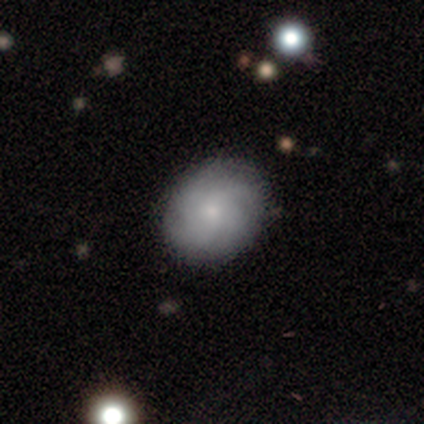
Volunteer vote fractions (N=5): Smooth or featured? featured or disk (80%)
Edge-on disk? no (100%)
Bar? no (100%)
Spiral arms? yes (100%)
Spiral winding? tight (50%, tied with loose)
Spiral arm count? 4 (50%, tied with can't tell)
Bulge size? small (100%)
Merging? none (80%)